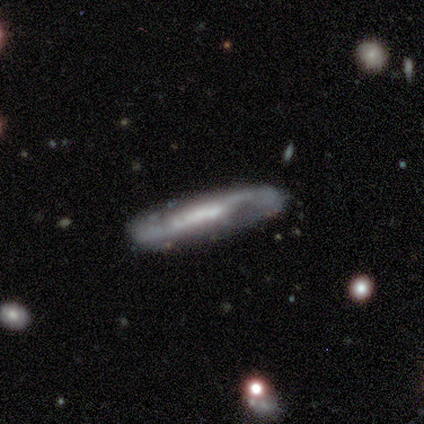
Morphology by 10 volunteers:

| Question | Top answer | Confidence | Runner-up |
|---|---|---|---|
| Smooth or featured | featured or disk | 80% | smooth (20%) |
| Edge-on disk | yes | 50% | tied: no (50%) |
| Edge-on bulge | none | 75% | boxy (25%) |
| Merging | none | 70% | minor disturbance (20%) |